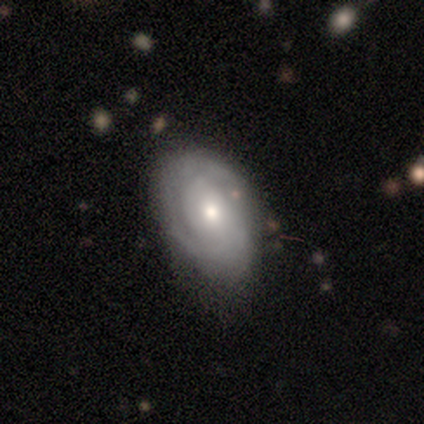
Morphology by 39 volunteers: smooth-or-featured: featured or disk: 74% | smooth: 26% | star or artifact: 0%
  disk-edge-on: no: 97% | yes: 3%
    bar: no: 79% | weak: 21% | strong: 0%
    has-spiral-arms: yes: 82% | no: 18%
      spiral-winding: tight: 65% | medium: 35% | loose: 0%
      spiral-arm-count: 2: 43% | can't tell: 39% | 1: 9% | 3: 9% | 4: 0% | more than 4: 0%
    bulge-size: moderate: 64% | small: 21% | dominant: 7% | large: 7% | none: 0%
  merging: none: 64% | minor disturbance: 33% | major disturbance: 3% | merger: 0%